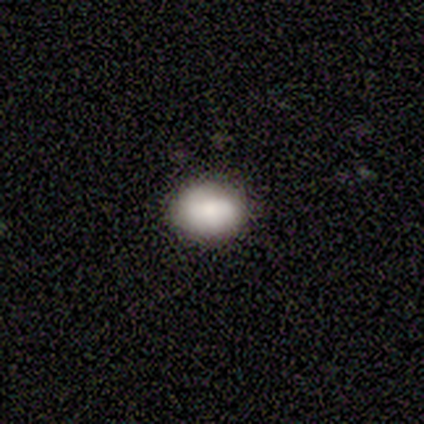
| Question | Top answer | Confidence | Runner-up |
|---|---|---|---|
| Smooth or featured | smooth | 75% | star or artifact (25%) |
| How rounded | in between | 67% | round (33%) |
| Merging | none | 67% | minor disturbance (33%) |